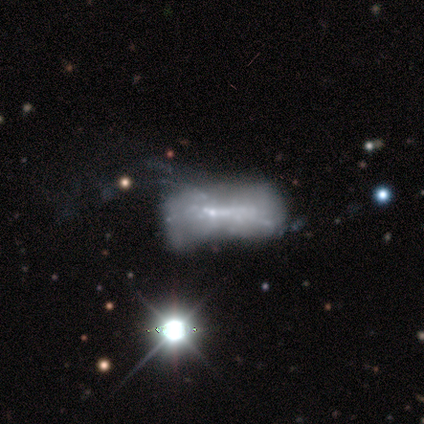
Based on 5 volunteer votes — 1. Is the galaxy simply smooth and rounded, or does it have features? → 80% featured or disk, 20% star or artifact, 0% smooth.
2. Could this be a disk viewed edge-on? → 75% no, 25% yes.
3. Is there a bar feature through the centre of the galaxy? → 67% no, 33% weak, 0% strong.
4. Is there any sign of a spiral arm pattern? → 67% yes, 33% no.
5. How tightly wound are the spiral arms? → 50% tight (tied), 50% medium (tied), 0% loose.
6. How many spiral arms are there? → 50% more than 4 (tied), 50% can't tell (tied), 0% 1, 0% 2, 0% 3, 0% 4.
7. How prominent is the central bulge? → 67% small, 33% dominant, 0% large, 0% moderate, 0% none.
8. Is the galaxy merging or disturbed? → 50% major disturbance, 25% minor disturbance, 25% merger, 0% none.